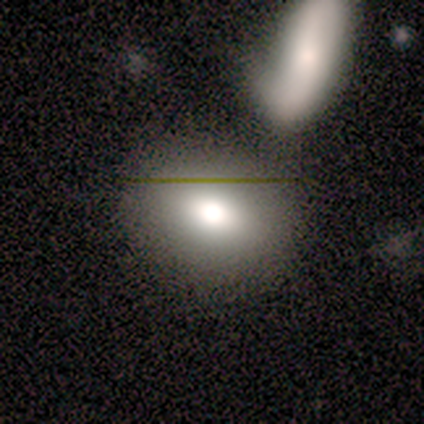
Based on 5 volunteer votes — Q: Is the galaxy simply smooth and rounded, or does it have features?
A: smooth — 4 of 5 (80%).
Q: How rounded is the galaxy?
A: in between — 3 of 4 (75%).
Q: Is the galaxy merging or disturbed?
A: none — 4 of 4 (100%).